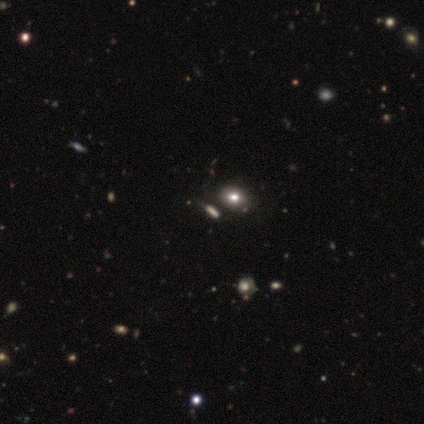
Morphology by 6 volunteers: smooth-or-featured: star or artifact: 50% | smooth: 33% | featured or disk: 17%